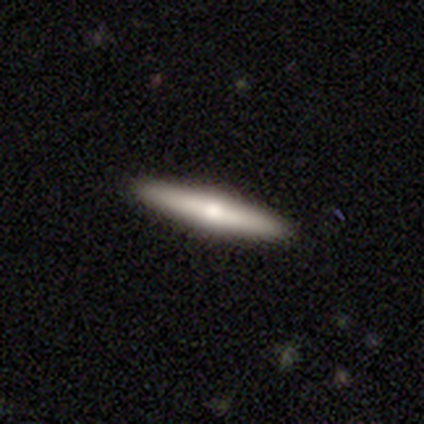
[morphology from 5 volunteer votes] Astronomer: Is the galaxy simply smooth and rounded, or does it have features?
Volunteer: featured or disk — 60% (runner-up: smooth, 40%).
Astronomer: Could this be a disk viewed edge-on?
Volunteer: yes — 67%.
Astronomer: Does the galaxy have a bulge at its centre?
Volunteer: rounded — 100%.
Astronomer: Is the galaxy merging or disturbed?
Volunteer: none — 100%.